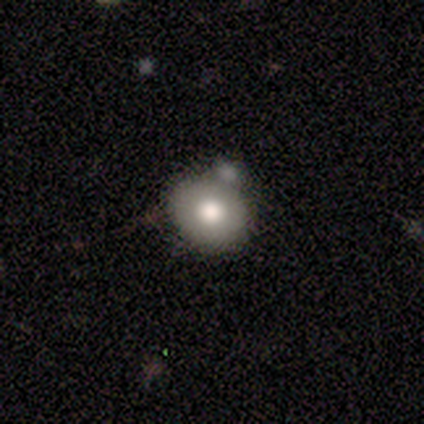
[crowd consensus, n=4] Smooth or featured?
  - smooth: 75% *
  - featured or disk: 25%
  - star or artifact: 0%
How rounded?
  - round: 67% *
  - in between: 33%
  - cigar-shaped: 0%
Merging?
  - none: 75% *
  - merger: 25%
  - minor disturbance: 0%
  - major disturbance: 0%